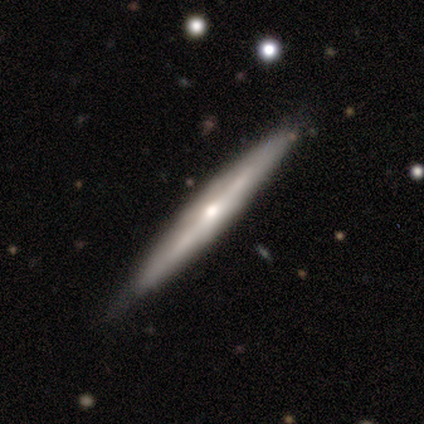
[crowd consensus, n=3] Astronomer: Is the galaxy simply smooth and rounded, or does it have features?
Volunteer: smooth — 67%.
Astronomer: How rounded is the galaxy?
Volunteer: cigar-shaped — 100%.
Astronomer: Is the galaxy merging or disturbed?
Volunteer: none — 100%.